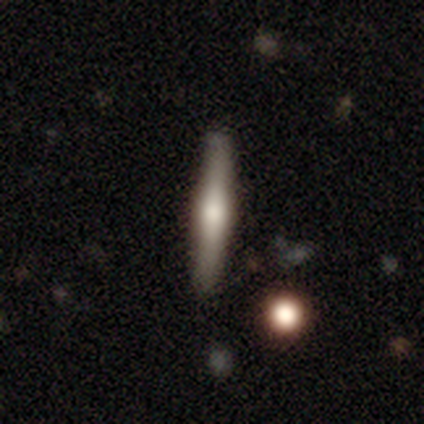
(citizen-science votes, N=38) Morphology: type=featured or disk (55%); edge-on=yes (100%); edge-on bulge=rounded (86%); merging=none (95%).